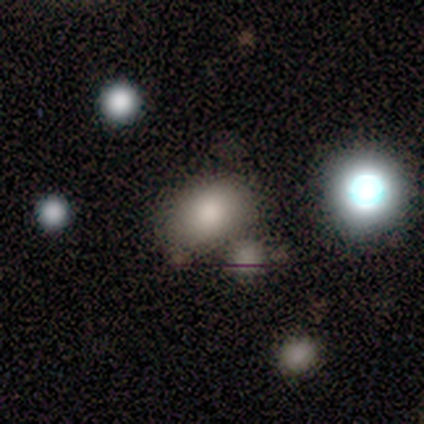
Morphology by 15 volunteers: Smooth or featured? smooth (60%)
How rounded? in between (89%)
Merging? none (77%)